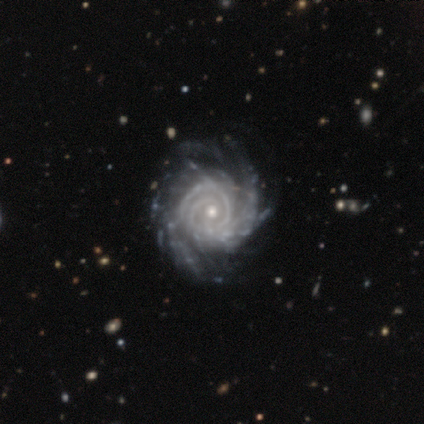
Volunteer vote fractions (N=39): A featured or disk galaxy (100%) with no bar (77%), more than 4 (23%, tied with can't tell) tight (82%) spiral arms (100%) and a small central bulge (56%). Merging: none (56%).